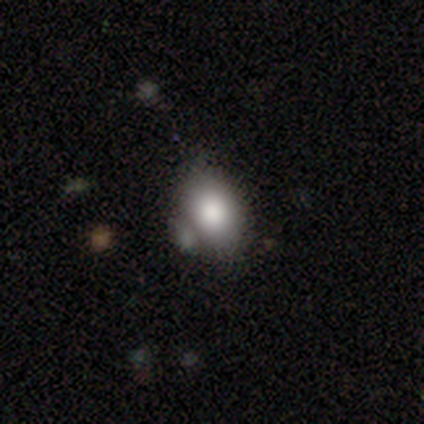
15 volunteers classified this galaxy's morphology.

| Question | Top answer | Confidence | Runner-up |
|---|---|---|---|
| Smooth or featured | smooth | 73% | featured or disk (20%) |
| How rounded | in between | 100% | — |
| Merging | none | 64% | merger (21%) |